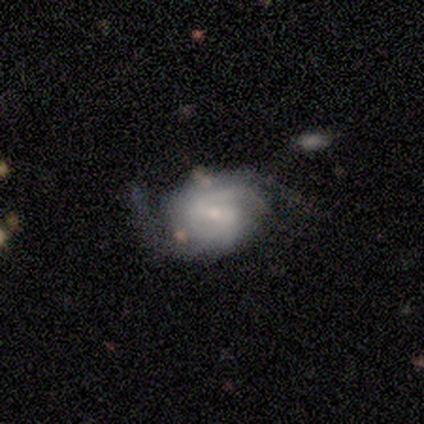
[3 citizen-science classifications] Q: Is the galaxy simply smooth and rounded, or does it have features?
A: featured or disk — 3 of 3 (100%).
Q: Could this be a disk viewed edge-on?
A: no — 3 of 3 (100%).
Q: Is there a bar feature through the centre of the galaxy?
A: weak — 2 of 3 (67%).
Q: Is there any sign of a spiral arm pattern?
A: yes — 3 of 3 (100%).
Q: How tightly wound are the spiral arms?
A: medium — 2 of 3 (67%).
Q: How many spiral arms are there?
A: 2 — 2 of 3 (67%).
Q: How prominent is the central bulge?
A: small — 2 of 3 (67%).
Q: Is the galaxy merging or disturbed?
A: none — 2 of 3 (67%).